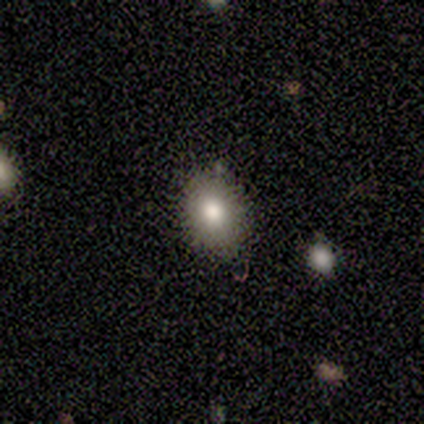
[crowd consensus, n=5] Smooth or featured? 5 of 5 (100%) said smooth. How rounded? 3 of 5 (60%) said in between. Merging? 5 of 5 (100%) said none.